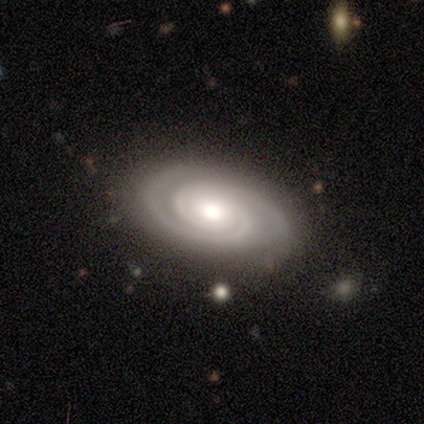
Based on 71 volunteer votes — This is clearly a featured or disk galaxy (97%). It is clearly not viewed edge-on (94%). Bar: clearly no (82%). Spiral arm pattern: clearly yes (100%). Spiral arm count: clearly 2 (85%). Spiral winding: clearly tight (85%). Central bulge: likely moderate (75%). Merging: possibly none (59%).